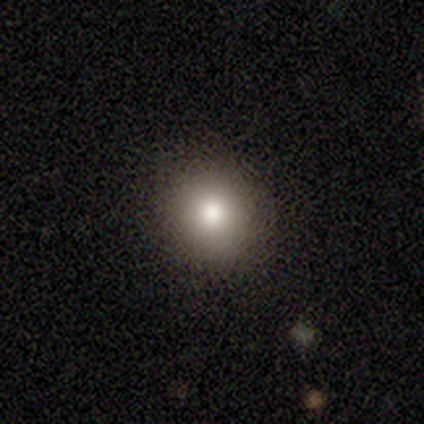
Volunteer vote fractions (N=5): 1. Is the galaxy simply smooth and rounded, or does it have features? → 80% smooth, 20% featured or disk, 0% star or artifact.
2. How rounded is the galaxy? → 100% round, 0% in between, 0% cigar-shaped.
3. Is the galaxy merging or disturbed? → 100% none, 0% minor disturbance, 0% major disturbance, 0% merger.